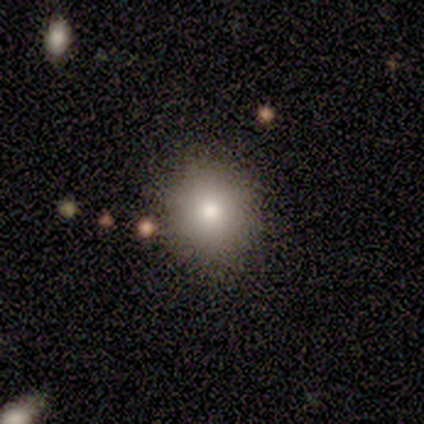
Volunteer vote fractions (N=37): This appears to be a smooth galaxy with no disk features (70%) that is round (77%). Merging: none (86%).